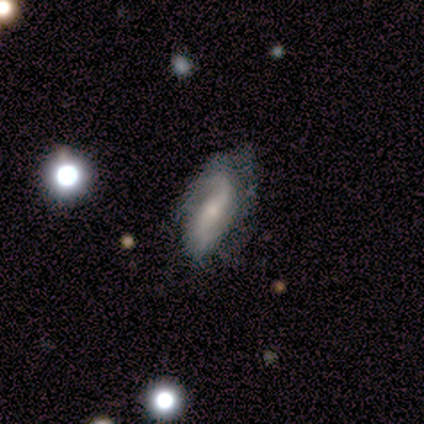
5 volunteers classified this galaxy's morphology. smooth_or_featured: featured or disk (p=1.00)
disk_edge_on: no (p=1.00)
bar: weak (p=0.40) [tied with: no p=0.40]
has_spiral_arms: yes (p=1.00)
spiral_winding: loose (p=0.60) [alt: medium p=0.40]
spiral_arm_count: 2 (p=0.80) [alt: can't tell p=0.20]
bulge_size: small (p=0.60) [alt: moderate p=0.40]
merging: none (p=0.80) [alt: major disturbance p=0.20]